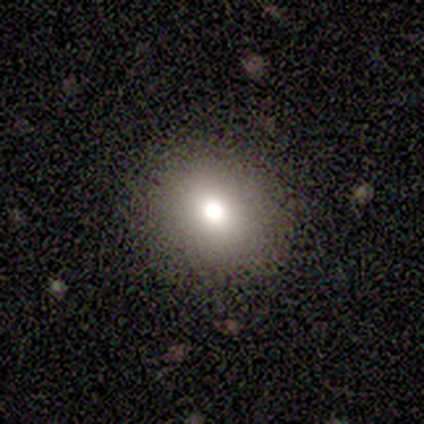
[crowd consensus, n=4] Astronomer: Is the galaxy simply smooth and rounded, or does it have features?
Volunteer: smooth — 50%.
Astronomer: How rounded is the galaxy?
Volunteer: round — 100%.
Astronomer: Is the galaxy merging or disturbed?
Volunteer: none — 67%.